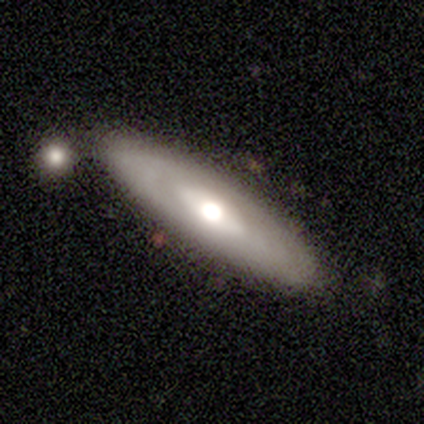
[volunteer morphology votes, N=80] Smooth or featured? featured or disk (55%)
Edge-on disk? no (73%)
Bar? no (75%)
Spiral arms? no (75%)
Bulge size? moderate (53%)
Merging? none (54%)